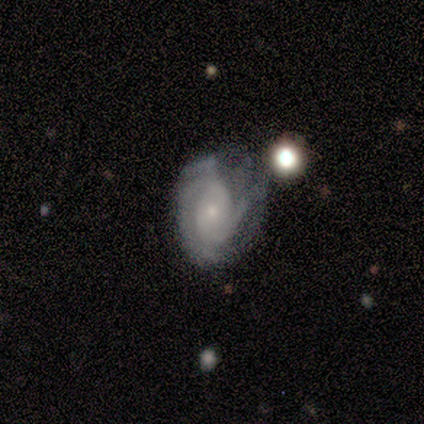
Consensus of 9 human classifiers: Volunteers were most divided on "merging" (2-way tie): none: 38%, minor disturbance: 38%, major disturbance: 25%, merger: 0%. More confident: edge-on disk — no (83%); bar — no (80%); spiral arms — yes (80%); bulge size — small (80%); spiral winding — tight (75%); spiral arm count — 2 (75%); smooth or featured — featured or disk (67%).